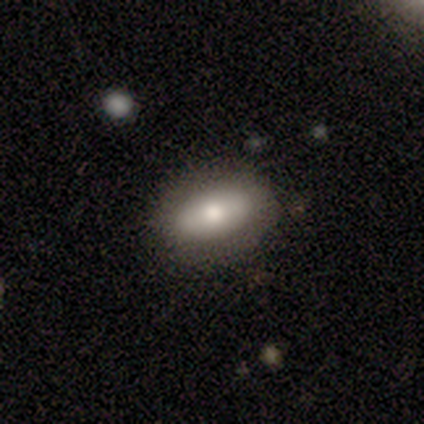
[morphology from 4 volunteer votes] Smooth or featured? 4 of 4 (100%) said smooth. How rounded? 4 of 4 (100%) said in between. Merging? 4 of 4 (100%) said none.